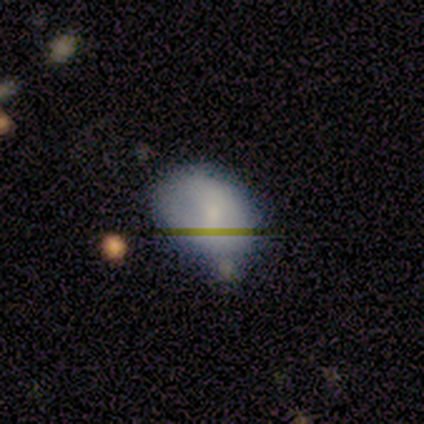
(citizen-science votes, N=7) Morphology: type=smooth (86%); roundness=in between (100%); merging=minor disturbance (57%).